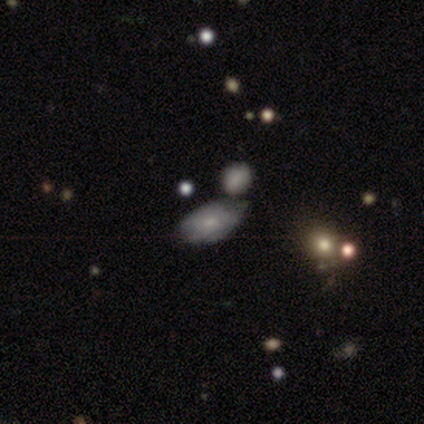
This is likely a smooth galaxy (60%). How rounded: clearly in between (100%). Merging: marginally minor disturbance (40%).